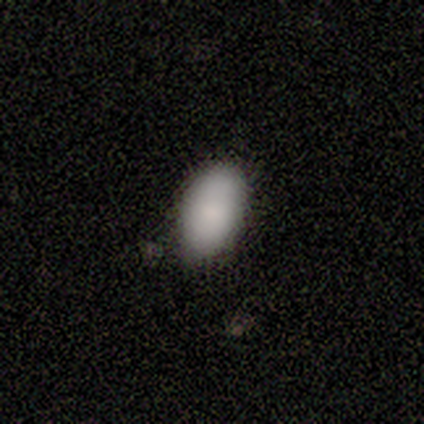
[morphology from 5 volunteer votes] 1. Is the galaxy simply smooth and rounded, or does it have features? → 60% smooth, 40% star or artifact, 0% featured or disk.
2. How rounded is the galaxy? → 100% in between, 0% round, 0% cigar-shaped.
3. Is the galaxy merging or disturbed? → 67% none, 33% minor disturbance, 0% major disturbance, 0% merger.